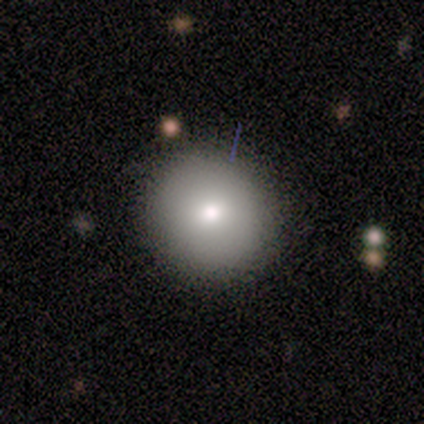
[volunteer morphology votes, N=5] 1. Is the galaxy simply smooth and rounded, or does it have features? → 80% smooth, 20% star or artifact, 0% featured or disk.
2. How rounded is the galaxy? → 100% round, 0% in between, 0% cigar-shaped.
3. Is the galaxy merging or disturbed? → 100% none, 0% minor disturbance, 0% major disturbance, 0% merger.